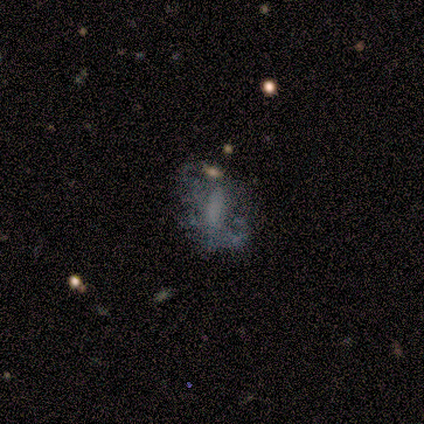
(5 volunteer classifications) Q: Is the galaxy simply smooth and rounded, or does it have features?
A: smooth — 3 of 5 (60%).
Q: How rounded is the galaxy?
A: cigar-shaped — 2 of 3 (67%).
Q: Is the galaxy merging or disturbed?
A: none — 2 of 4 (50%, tied with major disturbance).